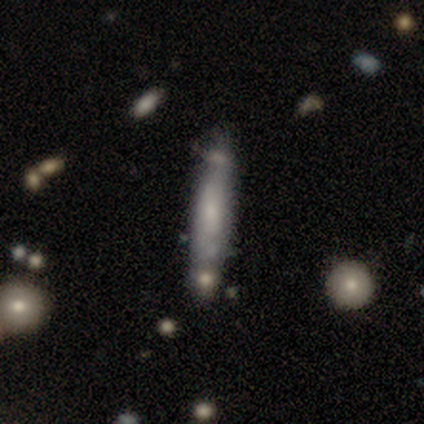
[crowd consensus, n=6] smooth-or-featured: featured or disk: 67% | smooth: 33% | star or artifact: 0%
  disk-edge-on: yes: 50% (tied) | no: 50% (tied)
    edge-on-bulge: none: 50% (tied) | rounded: 50% (tied) | boxy: 0%
  merging: none: 33% (tied) | minor disturbance: 33% (tied) | merger: 33% (tied) | major disturbance: 0%